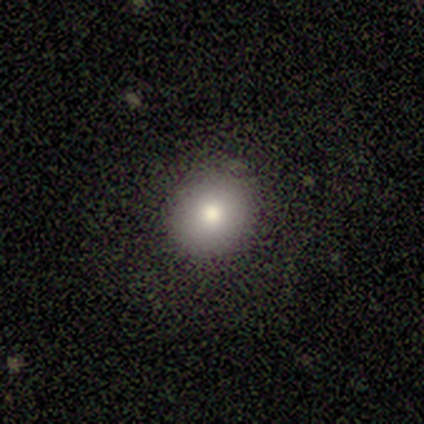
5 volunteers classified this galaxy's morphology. Smooth or featured? 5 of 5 (100%) said smooth. How rounded? 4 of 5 (80%) said round. Merging? 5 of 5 (100%) said none.